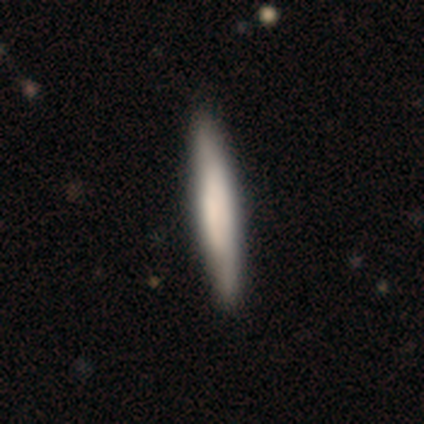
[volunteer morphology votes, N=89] smooth 65%, featured or disk 30%, star or artifact 4%. Down the decision tree: how rounded — cigar-shaped (95%); merging — none (94%).